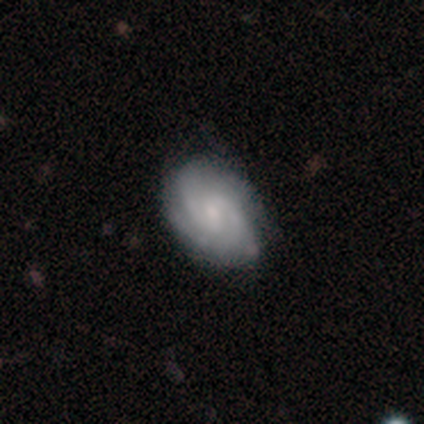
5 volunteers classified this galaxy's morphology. Smooth or featured?
  - featured or disk: 100% *
  - smooth: 0%
  - star or artifact: 0%
Edge-on disk?
  - no: 100% *
  - yes: 0%
Bar?
  - weak: 40% * (tied)
  - no: 40% * (tied)
  - strong: 20%
Spiral arms?
  - yes: 100% *
  - no: 0%
Spiral winding?
  - medium: 40% * (tied)
  - loose: 40% * (tied)
  - tight: 20%
Spiral arm count?
  - 2: 60% *
  - 3: 20%
  - can't tell: 20%
  - 1: 0%
  - 4: 0%
  - more than 4: 0%
Bulge size?
  - small: 60% *
  - moderate: 40%
  - dominant: 0%
  - large: 0%
  - none: 0%
Merging?
  - none: 100% *
  - minor disturbance: 0%
  - major disturbance: 0%
  - merger: 0%